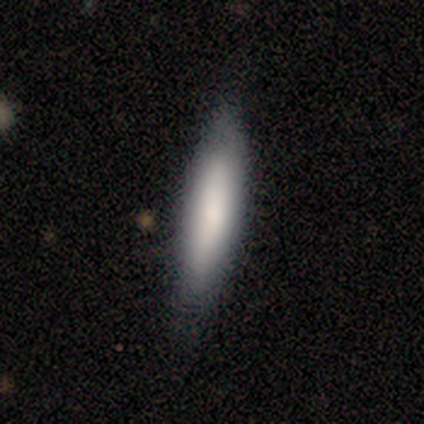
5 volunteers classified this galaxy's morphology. smooth-or-featured: smooth: 80% | featured or disk: 20% | star or artifact: 0%
  how-rounded: cigar-shaped: 100% | round: 0% | in between: 0%
  merging: minor disturbance: 60% | none: 40% | major disturbance: 0% | merger: 0%